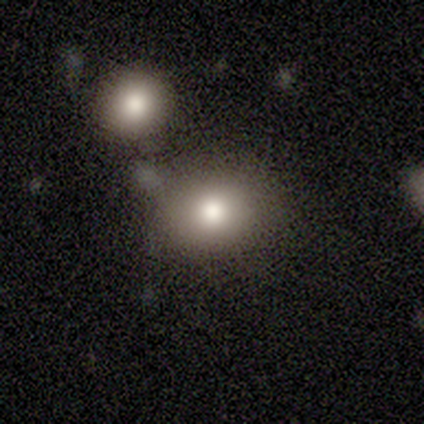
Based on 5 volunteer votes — Volunteers were most divided on "merging" (2-way tie): none: 40%, merger: 40%, minor disturbance: 20%, major disturbance: 0%. More confident: how rounded — round (100%); smooth or featured — smooth (80%).